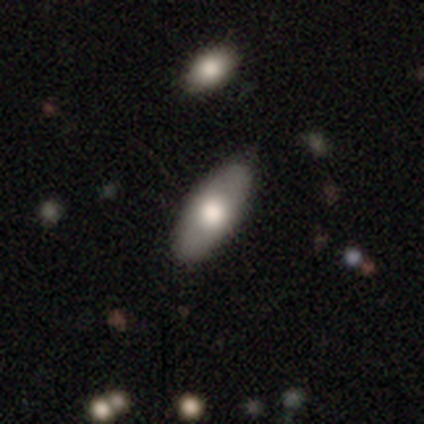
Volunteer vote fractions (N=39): Smooth or featured? smooth (64%)
How rounded? in between (80%)
Merging? none (82%)